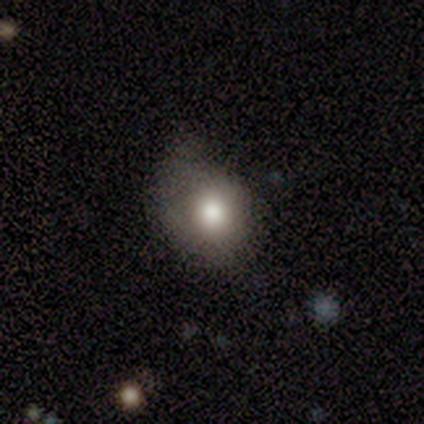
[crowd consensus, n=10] Overall: smooth (80%). How rounded: round (50%, tied with in between). Merging: minor disturbance (56%; none 22%).